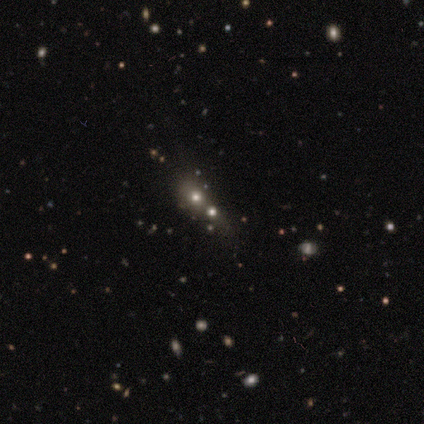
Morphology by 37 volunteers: Q: Smooth or featured?
A: smooth (54%); runner-up: star or artifact (38%)
Q: How rounded?
A: round (65%); runner-up: in between (30%)
Q: Merging?
A: none (43%); tied with: merger (43%)